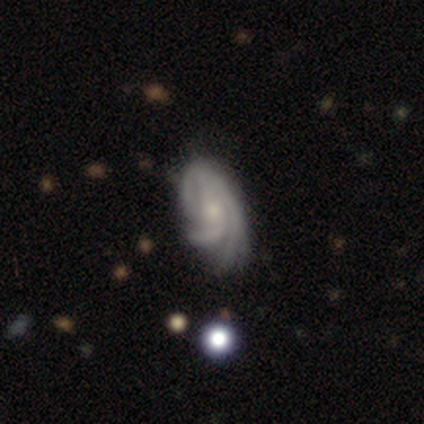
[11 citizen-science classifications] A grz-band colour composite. It shows a featured or disk galaxy (91%) with no bar (80%), tight (89%) spiral arms (90%) and a moderate central bulge (60%). Merging: none (40%).